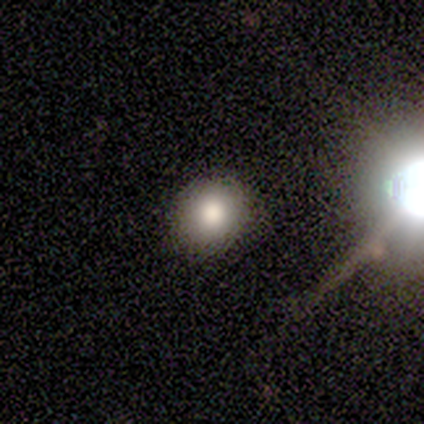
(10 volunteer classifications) smooth-or-featured: smooth: 80% | star or artifact: 20% | featured or disk: 0%
  how-rounded: round: 75% | in between: 25% | cigar-shaped: 0%
  merging: none: 100% | minor disturbance: 0% | major disturbance: 0% | merger: 0%